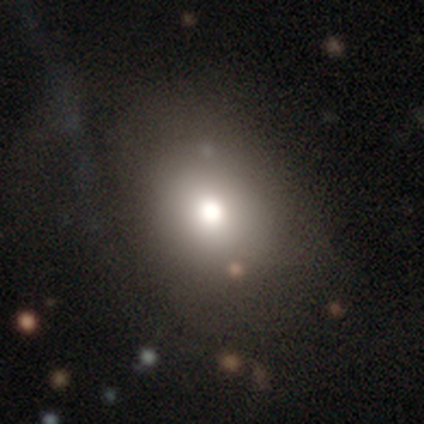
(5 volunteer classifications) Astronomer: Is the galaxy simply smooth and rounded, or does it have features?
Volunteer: smooth — 60%.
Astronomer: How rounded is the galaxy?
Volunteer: in between — 67%.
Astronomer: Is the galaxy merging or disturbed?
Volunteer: none — 75%.